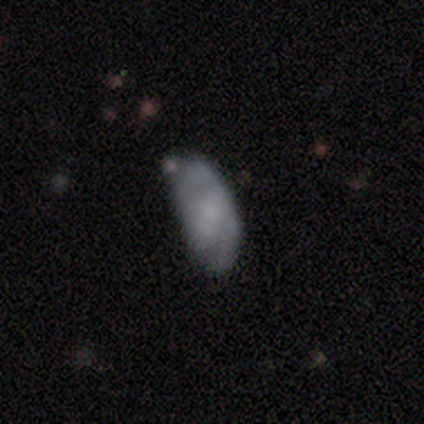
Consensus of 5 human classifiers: Q: Smooth or featured?
A: smooth (80%); runner-up: featured or disk (20%)
Q: How rounded?
A: in between (75%); runner-up: cigar-shaped (25%)
Q: Merging?
A: none (60%); runner-up: minor disturbance (20%)